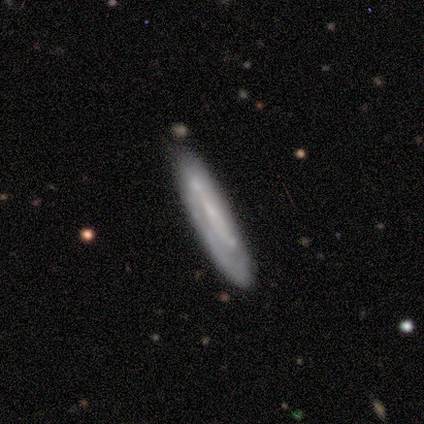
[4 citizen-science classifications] Overall: featured or disk (75%). Edge-on disk: yes (67%; no 33%). Edge-on bulge: none (100%). Merging: none (50%, tied with minor disturbance).